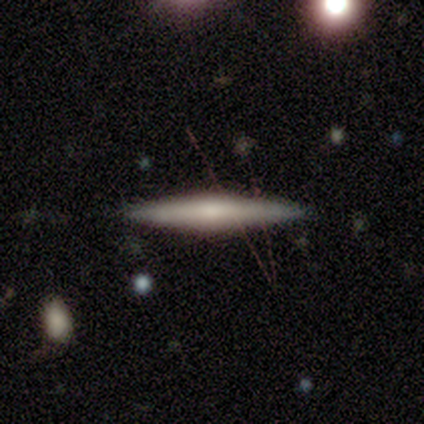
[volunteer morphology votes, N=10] This appears to be a featured or disk galaxy (80%) viewed edge-on (100%) with a rounded central bulge (88%). Merging: none (90%).